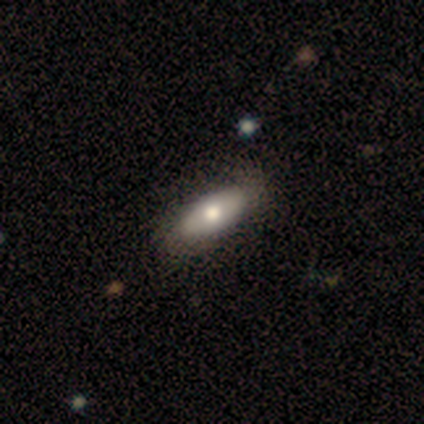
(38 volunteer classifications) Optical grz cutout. It shows a smooth galaxy with no disk features (74%) that is in between round and cigar-shaped (86%). Merging: none (49%).